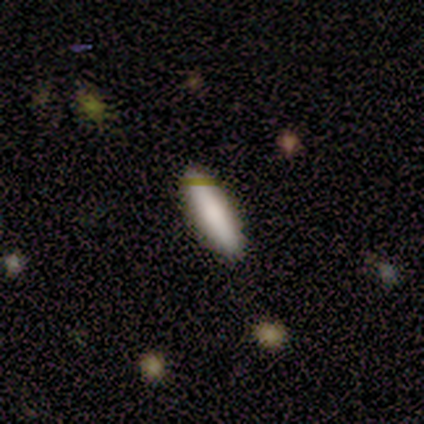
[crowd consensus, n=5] Smooth or featured? 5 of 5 (100%) said smooth. How rounded? 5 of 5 (100%) said cigar-shaped. Merging? 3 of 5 (60%) said none.